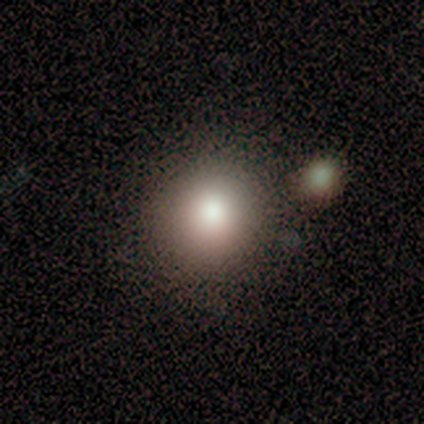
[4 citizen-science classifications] smooth 100%, featured or disk 0%, star or artifact 0%. Down the decision tree: how rounded — round (100%); merging — none (50%, tied with minor disturbance).